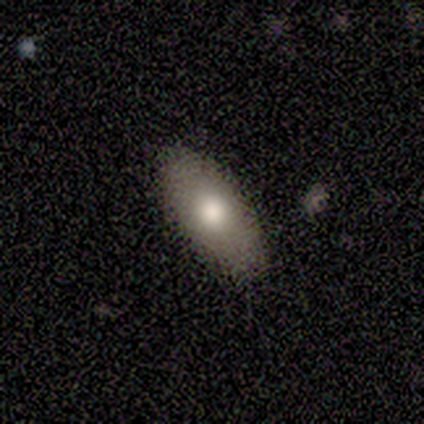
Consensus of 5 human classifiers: Q: Smooth or featured?
A: smooth (100%)
Q: How rounded?
A: in between (60%); runner-up: round (20%)
Q: Merging?
A: none (100%)